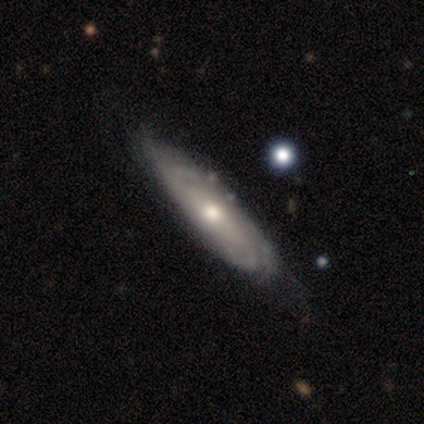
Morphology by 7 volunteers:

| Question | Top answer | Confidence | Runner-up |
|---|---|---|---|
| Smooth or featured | featured or disk | 100% | — |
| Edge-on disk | no | 86% | yes (14%) |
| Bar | no | 100% | — |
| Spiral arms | yes | 100% | — |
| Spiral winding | tight | 100% | — |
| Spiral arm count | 2 | 33% | tied: 3 (33%), can't tell (33%) |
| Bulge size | moderate | 50% | tied: small (50%) |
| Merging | none | 86% | minor disturbance (14%) |